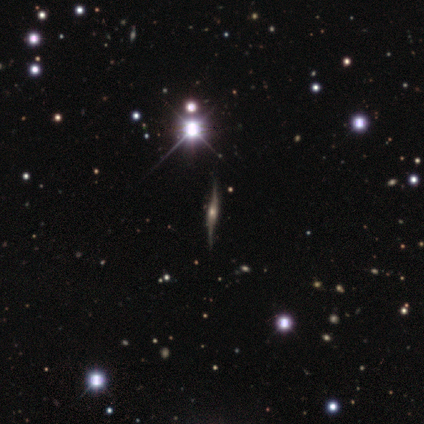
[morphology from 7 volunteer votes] star or artifact 57%, featured or disk 43%, smooth 0%.